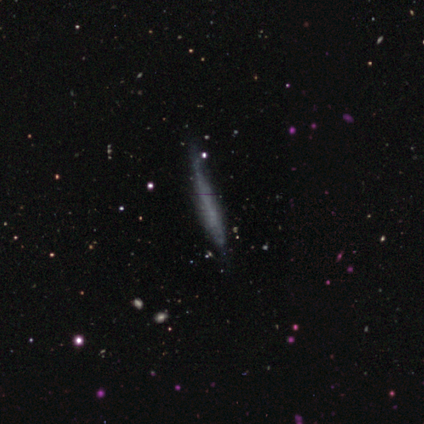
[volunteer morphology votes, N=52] This is possibly a smooth galaxy (60%). How rounded: clearly cigar-shaped (100%). Merging: likely none (70%).